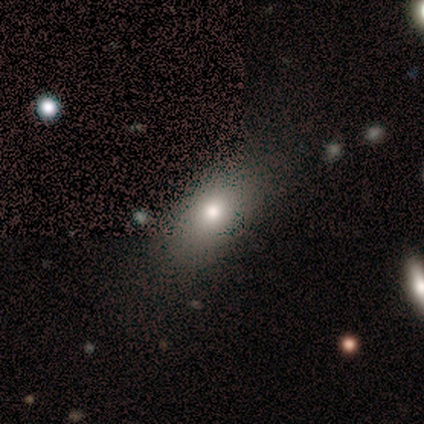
smooth 72%, featured or disk 14%, star or artifact 14%. Down the decision tree: how rounded — in between (81%); merging — none (30%).